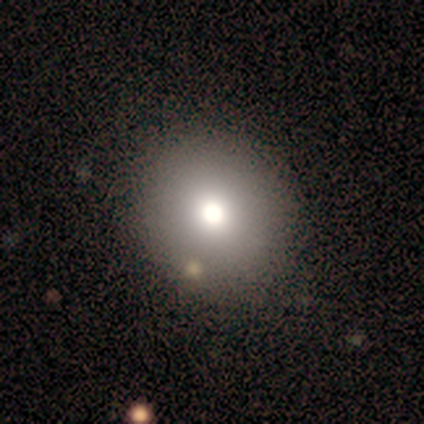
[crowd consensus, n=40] Q: Smooth or featured?
A: smooth (72%); runner-up: star or artifact (15%)
Q: How rounded?
A: round (86%); runner-up: in between (14%)
Q: Merging?
A: none (59%); runner-up: minor disturbance (3%)